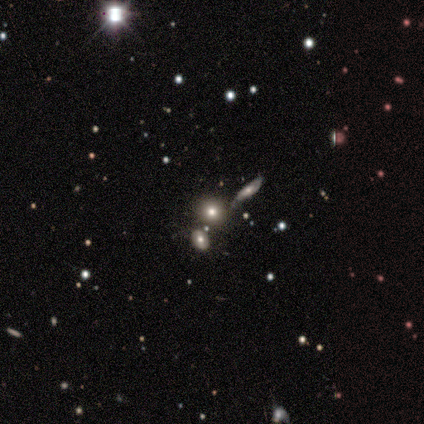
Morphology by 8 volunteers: A star or artifact, not a galaxy (50%).

Vote fractions:
- Smooth or featured? star or artifact: 50% / smooth: 25% / featured or disk: 25%